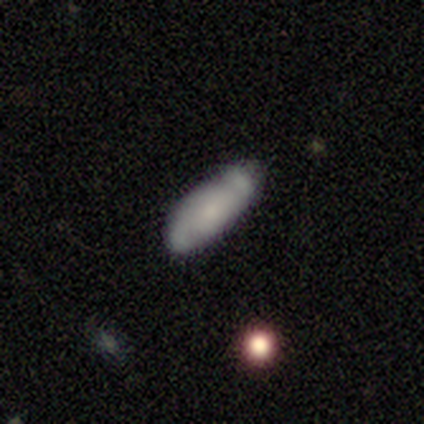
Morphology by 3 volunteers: smooth_or_featured: featured or disk (p=0.67) [alt: smooth p=0.33]
disk_edge_on: yes (p=1.00)
edge_on_bulge: none (p=0.50) [tied with: rounded p=0.50]
merging: none (p=1.00)